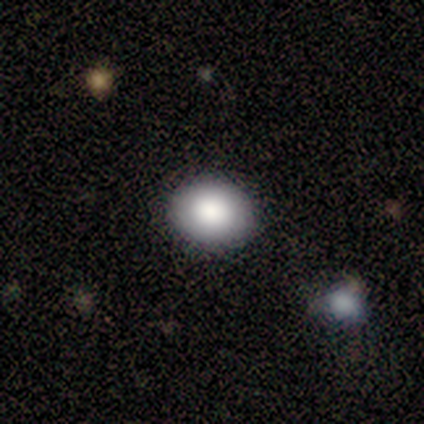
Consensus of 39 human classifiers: Volunteers were most divided on "how rounded": in between: 54%, round: 43%, cigar-shaped: 3%. More confident: smooth or featured — smooth (90%); merging — none (87%).